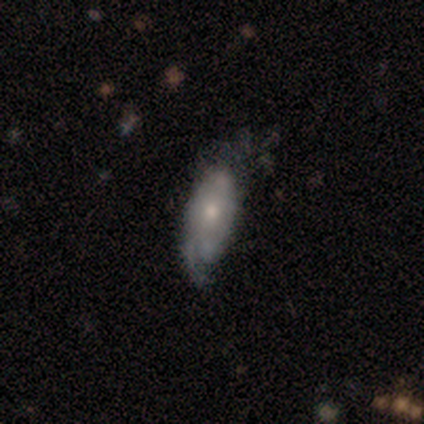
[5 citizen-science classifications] featured or disk 60%, smooth 20%, star or artifact 20%. Down the decision tree: edge-on disk — no (100%); bar — no (100%); spiral arms — yes (100%); spiral arm count — can't tell (100%); spiral winding — tight (67%); bulge size — small (100%); merging — none (50%).